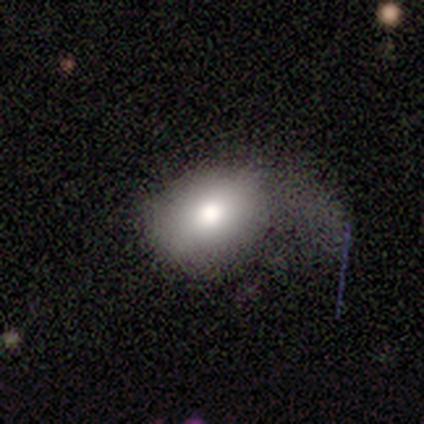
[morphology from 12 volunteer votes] Q: Smooth or featured?
A: smooth (83%); runner-up: featured or disk (8%)
Q: How rounded?
A: in between (70%); runner-up: round (30%)
Q: Merging?
A: major disturbance (73%); runner-up: none (18%)